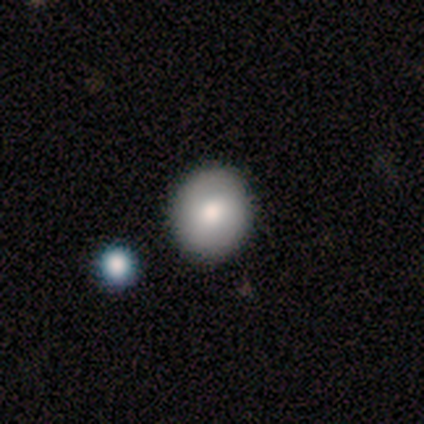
Smooth or featured? smooth (79%)
How rounded? round (80%)
Merging? none (84%)